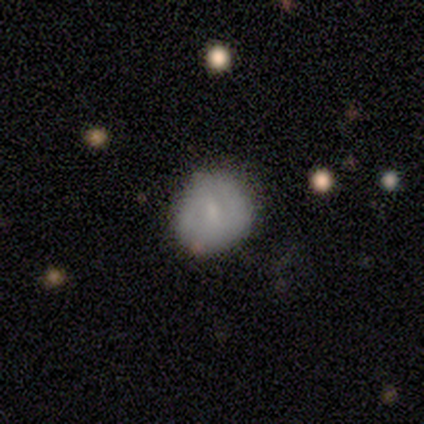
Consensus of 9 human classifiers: This is likely a featured or disk galaxy (67%). It is clearly not viewed edge-on (100%). Bar: likely weak (67%). Spiral arm pattern: likely no (67%). Central bulge: clearly small (83%). Merging: clearly none (100%).